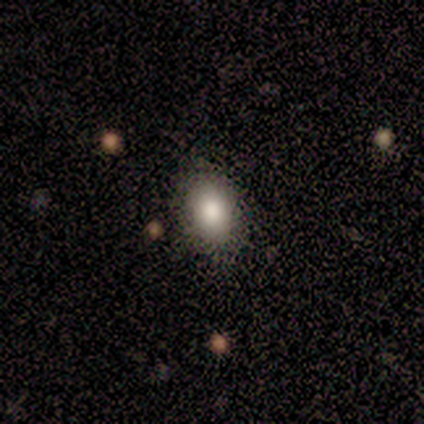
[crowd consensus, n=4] Smooth or featured?
  - smooth: 75% *
  - featured or disk: 25%
  - star or artifact: 0%
How rounded?
  - in between: 100% *
  - round: 0%
  - cigar-shaped: 0%
Merging?
  - none: 50% * (tied)
  - minor disturbance: 50% * (tied)
  - major disturbance: 0%
  - merger: 0%